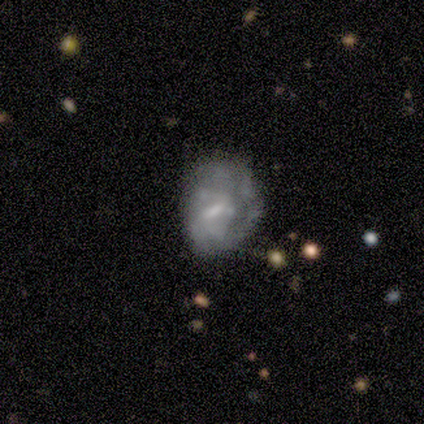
Smooth or featured?
  - featured or disk: 100% *
  - smooth: 0%
  - star or artifact: 0%
Edge-on disk?
  - no: 100% *
  - yes: 0%
Bar?
  - weak: 100% *
  - strong: 0%
  - no: 0%
Spiral arms?
  - yes: 100% *
  - no: 0%
Spiral winding?
  - medium: 50% * (tied)
  - loose: 50% * (tied)
  - tight: 0%
Spiral arm count?
  - 1: 50% * (tied)
  - can't tell: 50% * (tied)
  - 2: 0%
  - 3: 0%
  - 4: 0%
  - more than 4: 0%
Bulge size?
  - moderate: 50% * (tied)
  - none: 50% * (tied)
  - dominant: 0%
  - large: 0%
  - small: 0%
Merging?
  - none: 50% * (tied)
  - major disturbance: 50% * (tied)
  - minor disturbance: 0%
  - merger: 0%